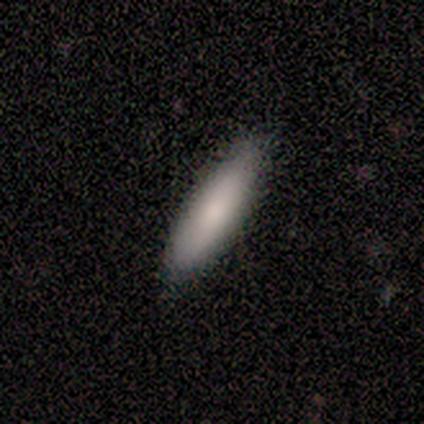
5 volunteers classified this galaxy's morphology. smooth_or_featured: smooth (p=1.00)
how_rounded: cigar-shaped (p=0.80) [alt: in between p=0.20]
merging: none (p=0.80) [alt: minor disturbance p=0.20]